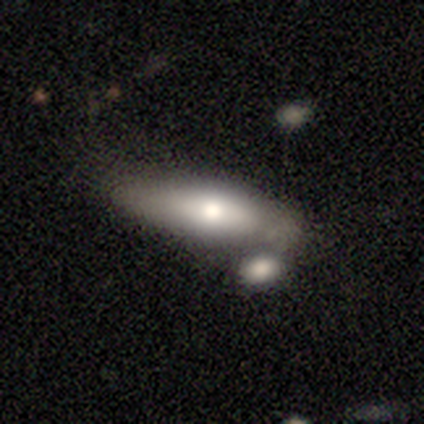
This appears to be a smooth galaxy with no disk features (68%) that is in between round and cigar-shaped (59%). Merging: none (42%, tied with merger).